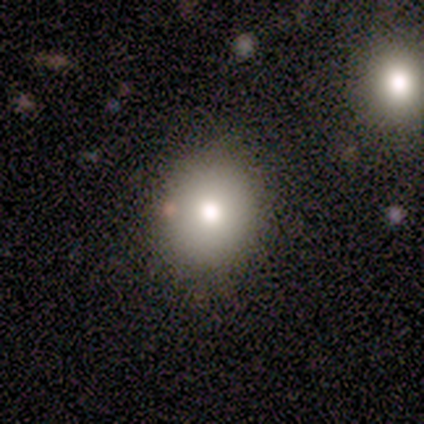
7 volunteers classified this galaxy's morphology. Volunteers were most divided on "how rounded" (2-way tie): round: 50%, in between: 50%, cigar-shaped: 0%. More confident: merging — none (100%); smooth or featured — smooth (86%).